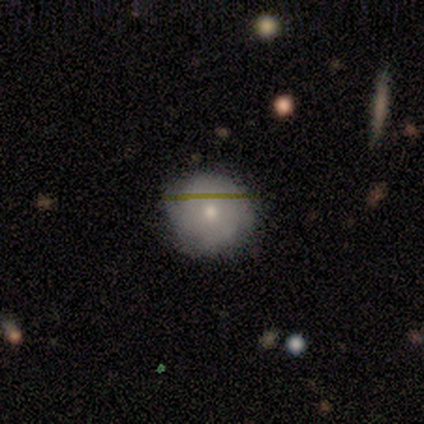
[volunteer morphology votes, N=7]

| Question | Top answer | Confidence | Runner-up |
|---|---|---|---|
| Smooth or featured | smooth | 71% | featured or disk (29%) |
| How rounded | round | 100% | — |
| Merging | none | 71% | minor disturbance (14%) |